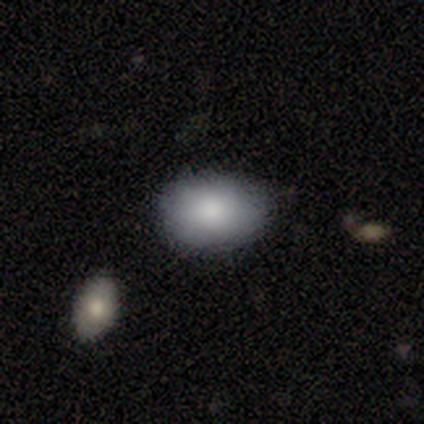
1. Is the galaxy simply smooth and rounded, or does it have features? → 100% smooth, 0% featured or disk, 0% star or artifact.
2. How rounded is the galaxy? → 60% in between, 40% round, 0% cigar-shaped.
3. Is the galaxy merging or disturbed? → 100% none, 0% minor disturbance, 0% major disturbance, 0% merger.